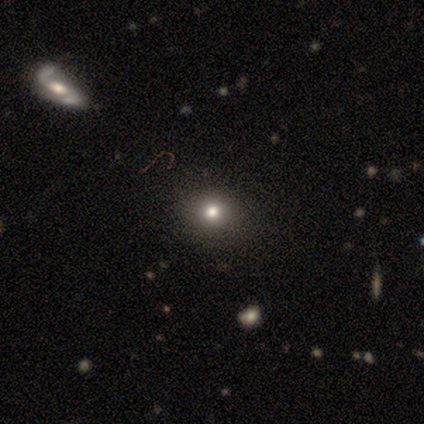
Smooth or featured?
  - smooth: 66% *
  - featured or disk: 18%
  - star or artifact: 16%
How rounded?
  - round: 88% *
  - in between: 12%
  - cigar-shaped: 0%
Merging?
  - none: 69% *
  - minor disturbance: 3%
  - major disturbance: 0%
  - merger: 0%